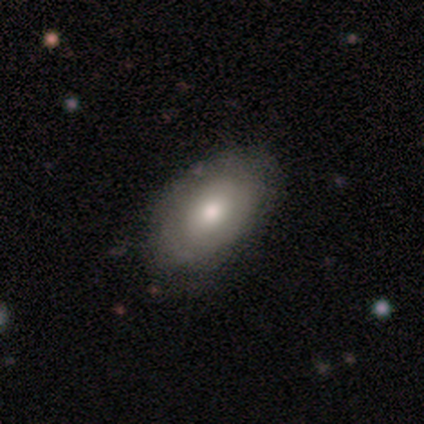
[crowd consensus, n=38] A smooth galaxy with no disk features (68%) that is in between round and cigar-shaped (92%). Merging: none (61%).